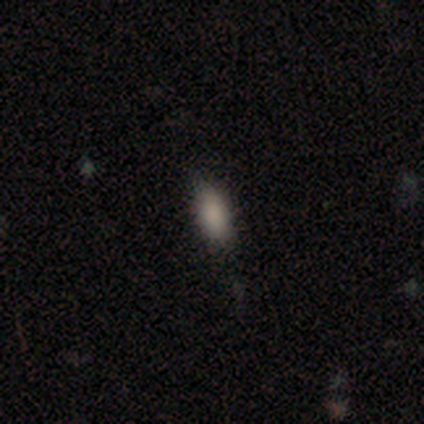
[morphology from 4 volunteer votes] Smooth or featured? smooth (100%)
How rounded? in between (75%)
Merging? none (75%)